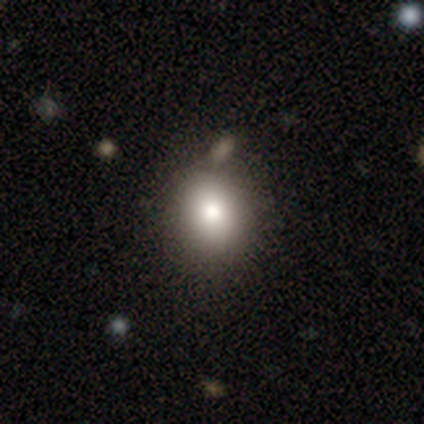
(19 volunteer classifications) Morphology: type=smooth (79%); roundness=round (53%); merging=none (71%).